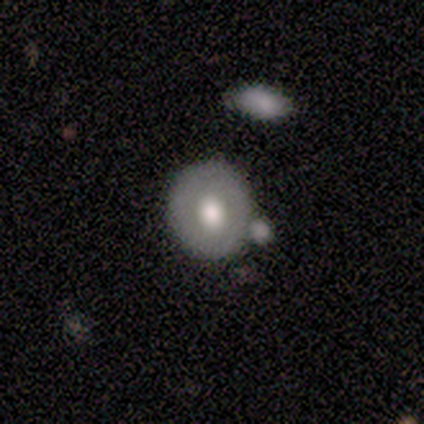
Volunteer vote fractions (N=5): Smooth or featured? 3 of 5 (60%) said smooth. How rounded? 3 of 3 (100%) said round. Merging? 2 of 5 (40%, tied with merger) said none.